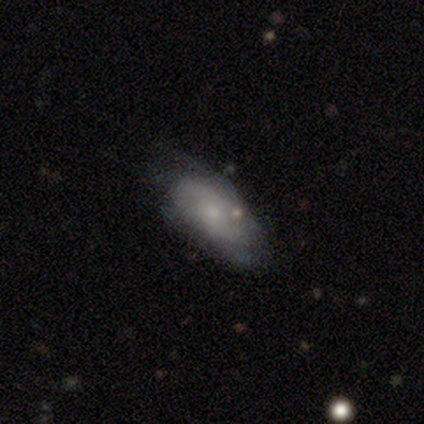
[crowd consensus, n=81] Q: Smooth or featured?
A: featured or disk (52%); runner-up: smooth (46%)
Q: Edge-on disk?
A: no (93%); runner-up: yes (7%)
Q: Bar?
A: no (79%); runner-up: weak (21%)
Q: Spiral arms?
A: yes (79%); runner-up: no (21%)
Q: Spiral winding?
A: medium (45%); runner-up: tight (29%)
Q: Spiral arm count?
A: can't tell (48%); runner-up: 2 (35%)
Q: Bulge size?
A: small (64%); runner-up: moderate (28%)
Q: Merging?
A: none (33%); runner-up: minor disturbance (20%)